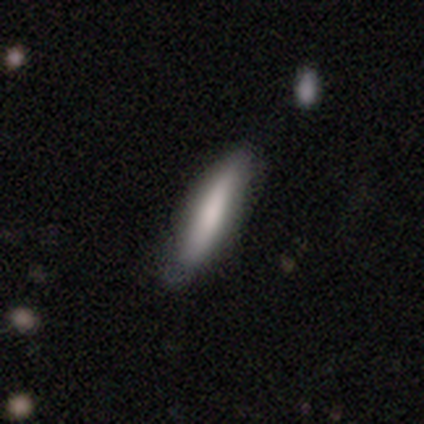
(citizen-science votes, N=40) smooth 78%, featured or disk 12%, star or artifact 10%. Down the decision tree: how rounded — cigar-shaped (77%); merging — none (72%).